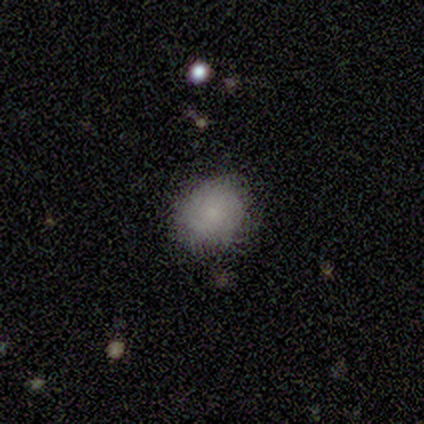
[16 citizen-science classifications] This appears to be a smooth galaxy with no disk features (50%) that is round (88%). Merging: none (82%).